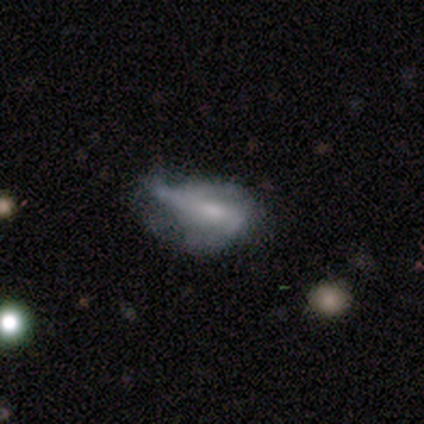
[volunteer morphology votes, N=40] Volunteers were most divided on "spiral arms": yes: 53%, no: 47%. Remaining: edge-on disk — no (86%); smooth or featured — featured or disk (55%); bar — no (53%); spiral winding — loose (50%); spiral arm count — can't tell (50%); bulge size — none (47%); merging — minor disturbance (45%).